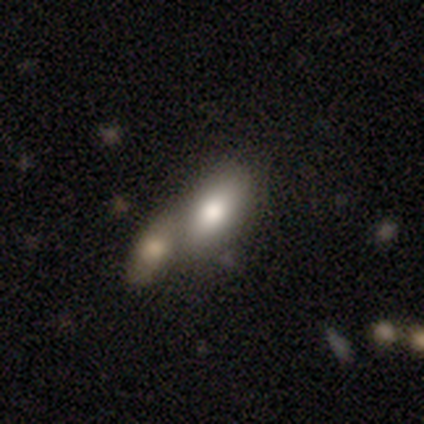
Smooth or featured? smooth (76%)
How rounded? in between (97%)
Merging? merger (71%)